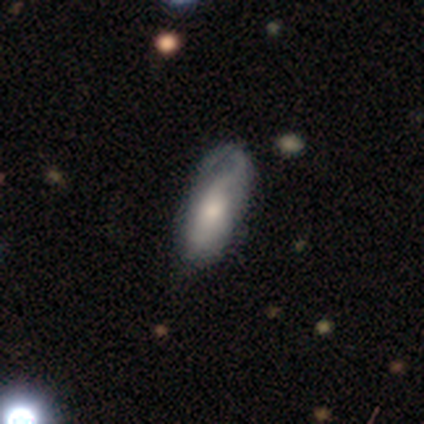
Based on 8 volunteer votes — Q: Smooth or featured?
A: smooth (50%); tied with: featured or disk (50%)
Q: How rounded?
A: in between (100%)
Q: Merging?
A: minor disturbance (38%); tied with: major disturbance (38%)